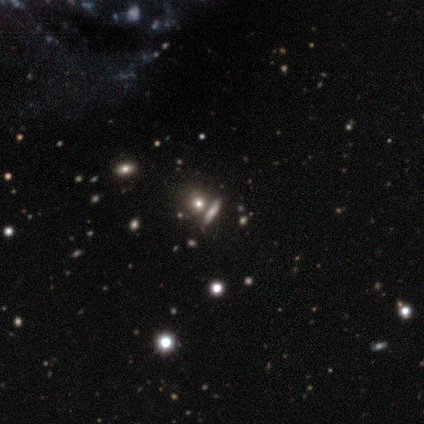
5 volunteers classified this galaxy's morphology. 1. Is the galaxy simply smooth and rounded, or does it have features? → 60% smooth, 40% star or artifact, 0% featured or disk.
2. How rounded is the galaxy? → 33% round (tied), 33% in between (tied), 33% cigar-shaped (tied).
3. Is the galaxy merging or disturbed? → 100% none, 0% minor disturbance, 0% major disturbance, 0% merger.